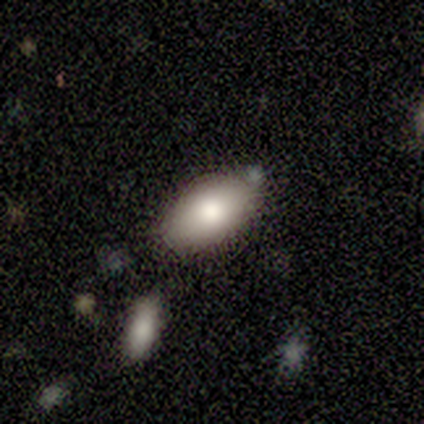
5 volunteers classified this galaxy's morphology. Smooth or featured?
  - smooth: 100% *
  - featured or disk: 0%
  - star or artifact: 0%
How rounded?
  - in between: 100% *
  - round: 0%
  - cigar-shaped: 0%
Merging?
  - none: 100% *
  - minor disturbance: 0%
  - major disturbance: 0%
  - merger: 0%